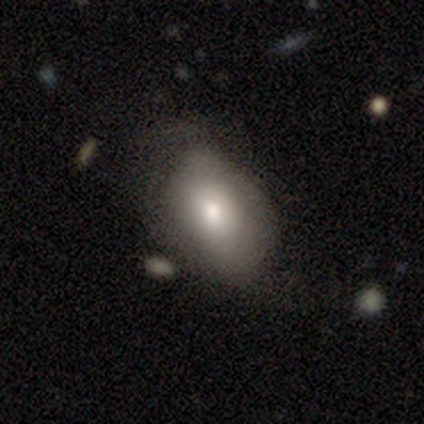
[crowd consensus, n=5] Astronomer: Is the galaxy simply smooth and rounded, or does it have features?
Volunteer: smooth — 80%.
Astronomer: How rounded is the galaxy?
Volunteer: in between — 75%.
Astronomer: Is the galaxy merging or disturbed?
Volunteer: none — 50%.